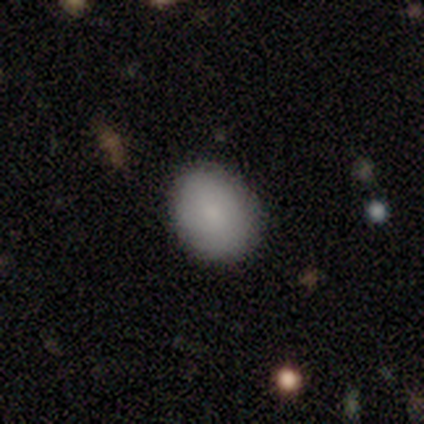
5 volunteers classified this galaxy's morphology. type=smooth (80%); roundness=round (50%, tied with in between); merging=none (100%).